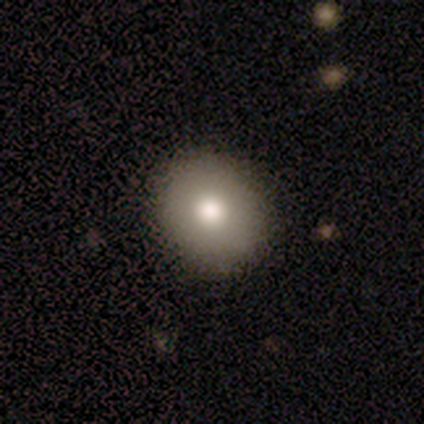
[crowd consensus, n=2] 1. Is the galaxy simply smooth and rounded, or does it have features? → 100% smooth, 0% featured or disk, 0% star or artifact.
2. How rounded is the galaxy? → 50% round (tied), 50% in between (tied), 0% cigar-shaped.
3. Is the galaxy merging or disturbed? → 100% none, 0% minor disturbance, 0% major disturbance, 0% merger.